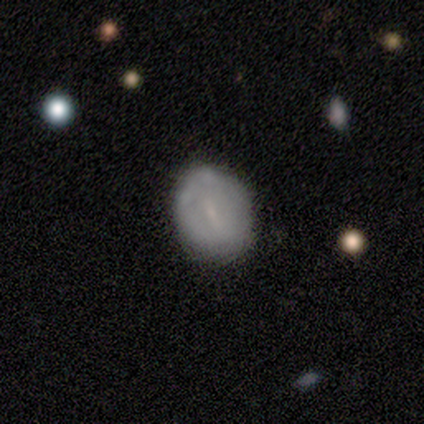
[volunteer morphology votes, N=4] A smooth galaxy with no disk features (75%) that is round (67%). Merging: none (75%).